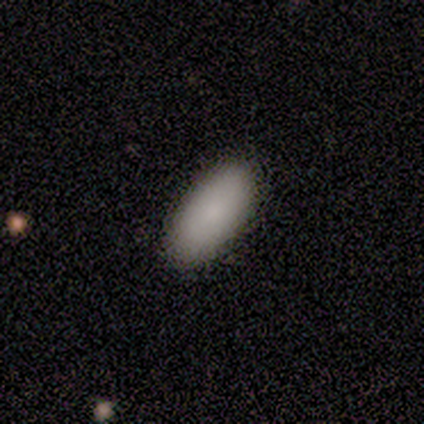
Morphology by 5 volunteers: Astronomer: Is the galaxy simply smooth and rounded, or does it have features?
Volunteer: smooth — 100%.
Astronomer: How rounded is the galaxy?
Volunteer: in between — 80%.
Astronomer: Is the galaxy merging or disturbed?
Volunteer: none — 80%.